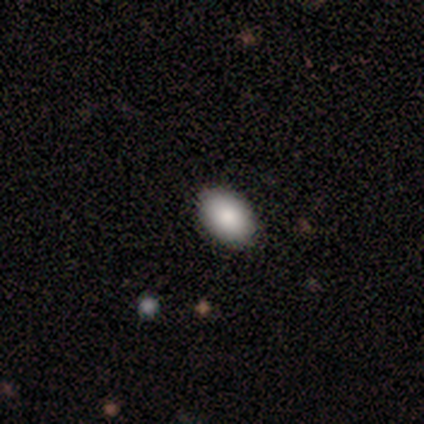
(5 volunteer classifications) smooth_or_featured: smooth (p=1.00)
how_rounded: in between (p=0.80) [alt: round p=0.20]
merging: none (p=1.00)